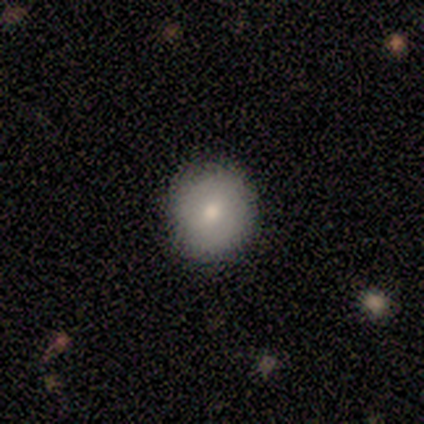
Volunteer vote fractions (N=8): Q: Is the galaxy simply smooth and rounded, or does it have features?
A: smooth — 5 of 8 (62%).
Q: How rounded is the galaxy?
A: round — 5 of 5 (100%).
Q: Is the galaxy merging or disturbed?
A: none — 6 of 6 (100%).